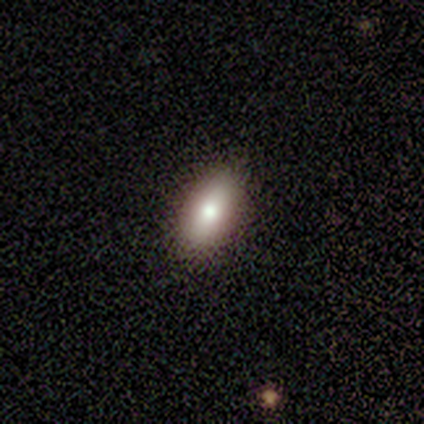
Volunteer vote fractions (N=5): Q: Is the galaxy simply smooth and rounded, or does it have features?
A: smooth — 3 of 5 (60%).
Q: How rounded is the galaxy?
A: in between — 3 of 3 (100%).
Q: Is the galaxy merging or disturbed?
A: none — 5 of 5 (100%).